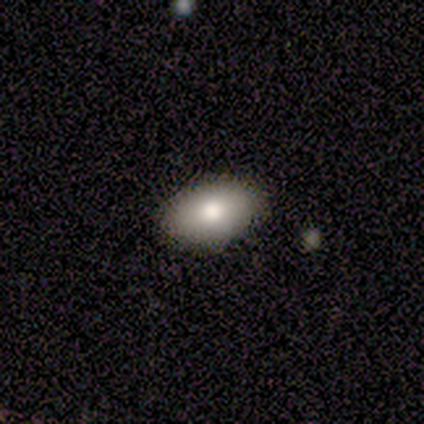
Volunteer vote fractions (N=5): This appears to be a smooth galaxy with no disk features (100%) that is in between round and cigar-shaped (100%). Merging: none (80%).